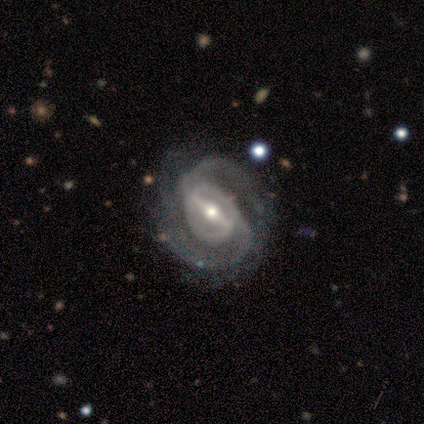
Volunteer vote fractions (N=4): A featured or disk galaxy (100%) with a strong bar (100%), 2 (75%) tight (50%, tied with medium) spiral arms (100%) and a small central bulge (75%). Merging: none (50%).